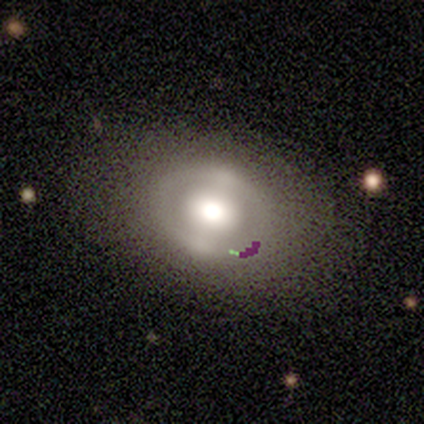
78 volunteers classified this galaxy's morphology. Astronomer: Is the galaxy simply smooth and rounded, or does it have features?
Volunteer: featured or disk — 51% (runner-up: smooth, 40%).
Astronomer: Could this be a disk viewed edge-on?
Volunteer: no — 90%.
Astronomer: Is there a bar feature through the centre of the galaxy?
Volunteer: no — 50% (runner-up: strong, 31%).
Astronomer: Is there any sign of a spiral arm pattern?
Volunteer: no — 83%.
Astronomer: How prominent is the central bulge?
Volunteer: large — 50% (runner-up: moderate, 33%).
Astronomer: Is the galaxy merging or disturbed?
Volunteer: none — 41%.